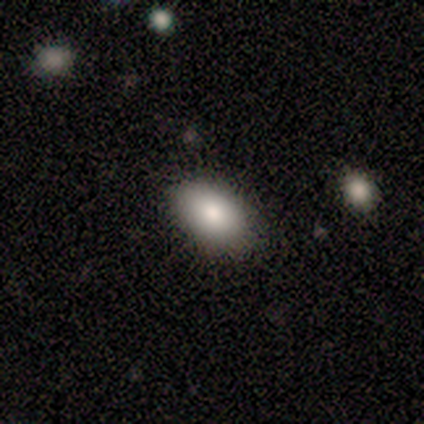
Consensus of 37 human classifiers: This is clearly a smooth galaxy (84%). How rounded: clearly in between (90%). Merging: clearly none (82%).